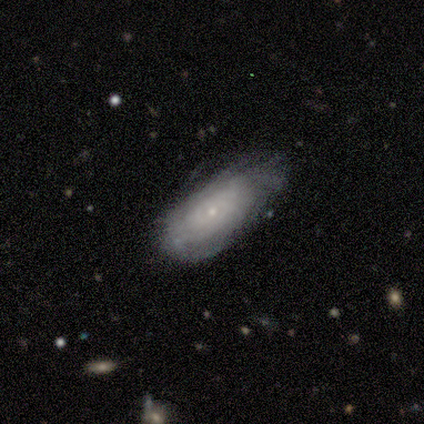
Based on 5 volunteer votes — Smooth or featured: featured or disk — 60% (smooth — 40%)
Edge-on disk: no — 100%
Bar: no — 100%
Spiral arms: yes — 100%
Spiral winding: loose — 67% (tight — 33%)
Spiral arm count: can't tell — 67% (more than 4 — 33%)
Bulge size: small — 100%
Merging: none — 80% (minor disturbance — 20%)